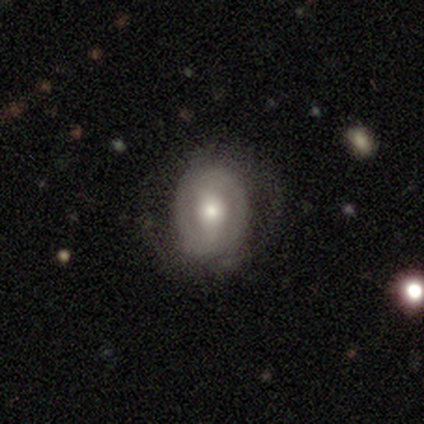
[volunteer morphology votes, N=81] smooth_or_featured: featured or disk (p=0.64) [alt: smooth p=0.28]
disk_edge_on: no (p=0.98) [alt: yes p=0.02]
bar: weak (p=0.43) [alt: no p=0.39]
has_spiral_arms: no (p=0.53) [alt: yes p=0.47]
bulge_size: moderate (p=0.63) [alt: large p=0.24]
merging: none (p=0.36) [alt: minor disturbance p=0.12]